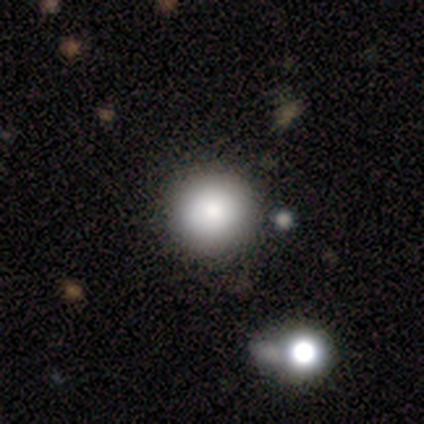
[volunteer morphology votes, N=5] A smooth galaxy with no disk features (60%) that is round (100%). Merging: none (60%).